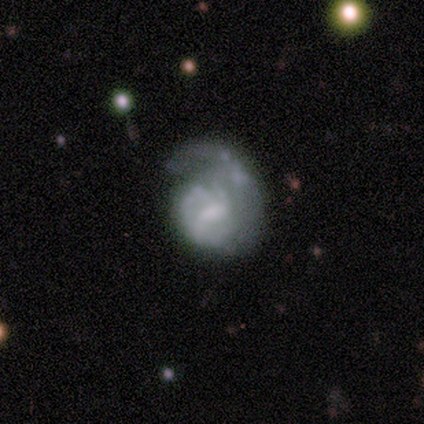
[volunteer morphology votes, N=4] type=featured or disk (50%); edge-on=no (100%); bar=weak (50%, tied with no); spiral arms=yes (100%); winding=tight (50%, tied with medium); arm count=can't tell (100%); bulge=moderate (50%, tied with none); merging=none (67%).